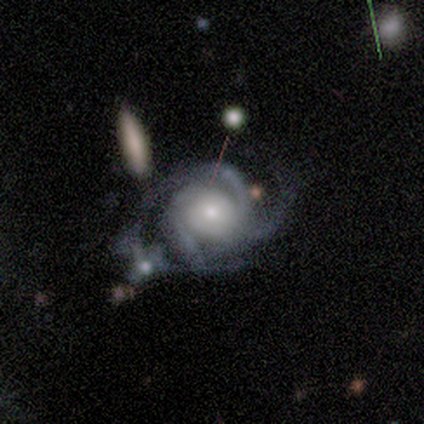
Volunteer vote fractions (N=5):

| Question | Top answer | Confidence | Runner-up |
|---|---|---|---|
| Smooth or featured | featured or disk | 100% | — |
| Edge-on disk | no | 100% | — |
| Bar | no | 100% | — |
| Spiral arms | yes | 100% | — |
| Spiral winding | tight | 60% | medium (40%) |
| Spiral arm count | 3 | 80% | 4 (20%) |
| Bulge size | small | 60% | large (20%) |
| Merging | none | 40% | tied: major disturbance (40%) |